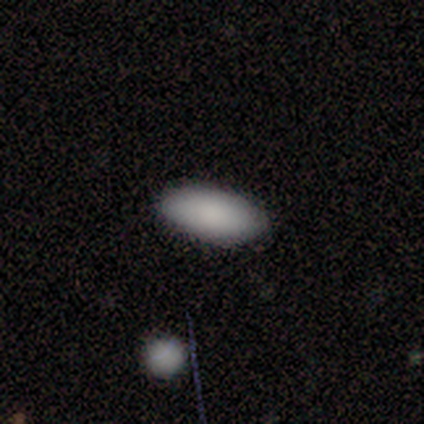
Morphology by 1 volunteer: smooth-or-featured: smooth: 100% | featured or disk: 0% | star or artifact: 0%
  how-rounded: in between: 100% | round: 0% | cigar-shaped: 0%
  merging: none: 100% | minor disturbance: 0% | major disturbance: 0% | merger: 0%